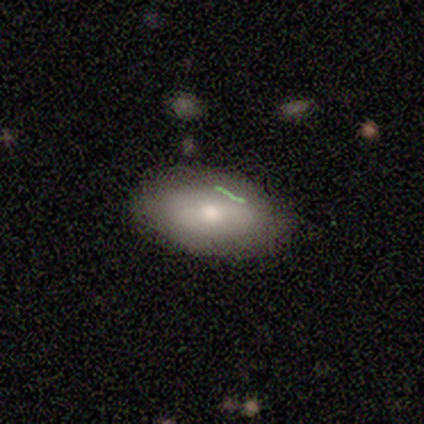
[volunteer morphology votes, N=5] This appears to be a featured or disk galaxy (60%) with no bar (67%), no spiral arms (67%) and a large central bulge (33%, tied with moderate and small). Merging: none (60%).